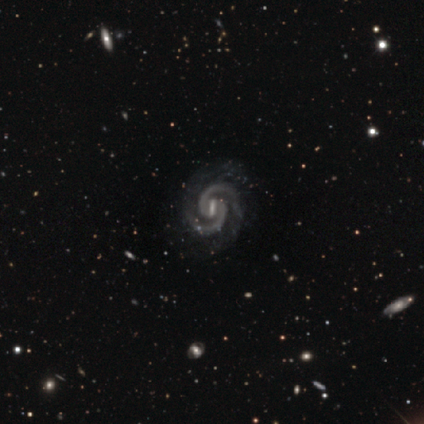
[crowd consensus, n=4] Smooth or featured: featured or disk — 100%
Edge-on disk: no — 100%
Bar: strong — 75% (weak — 25%)
Spiral arms: yes — 100%
Spiral winding: tight — 75% (medium — 25%)
Spiral arm count: 2 — 100%
Bulge size: small — 75% (moderate — 25%)
Merging: none — 50% (minor disturbance — 25%)